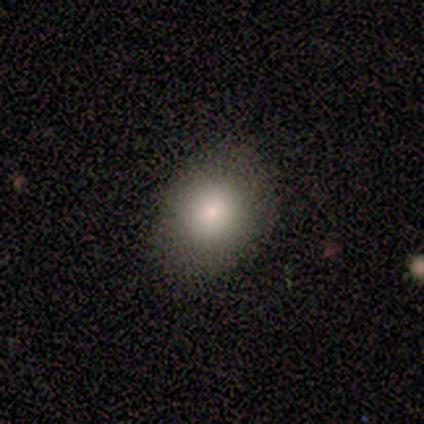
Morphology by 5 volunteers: Smooth or featured? smooth (100%)
How rounded? in between (80%)
Merging? none (100%)